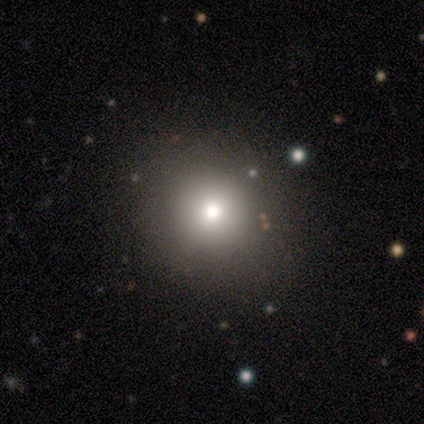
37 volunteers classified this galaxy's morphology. Smooth or featured? smooth (62%)
How rounded? round (87%)
Merging? none (83%)